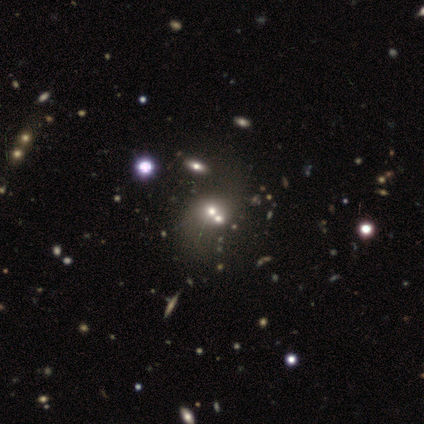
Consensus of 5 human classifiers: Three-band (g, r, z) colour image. It shows a smooth galaxy with no disk features (40%, tied with featured or disk) that is in between round and cigar-shaped (100%). Merging: merger (75%).